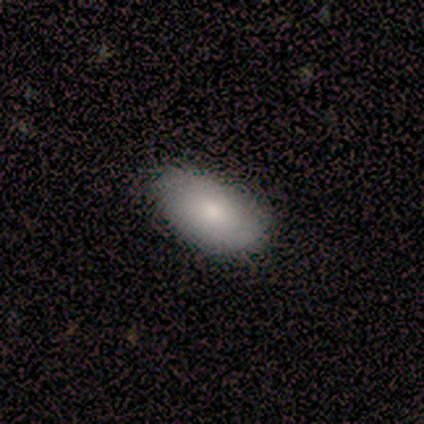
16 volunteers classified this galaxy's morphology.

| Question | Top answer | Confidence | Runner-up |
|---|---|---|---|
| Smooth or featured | smooth | 56% | featured or disk (44%) |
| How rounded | in between | 78% | round (22%) |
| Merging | none | 100% | — |